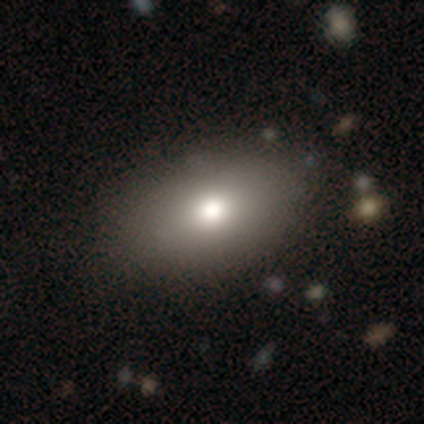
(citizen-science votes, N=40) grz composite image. It shows a smooth galaxy with no disk features (70%) that is in between round and cigar-shaped (96%). Merging: none (79%).